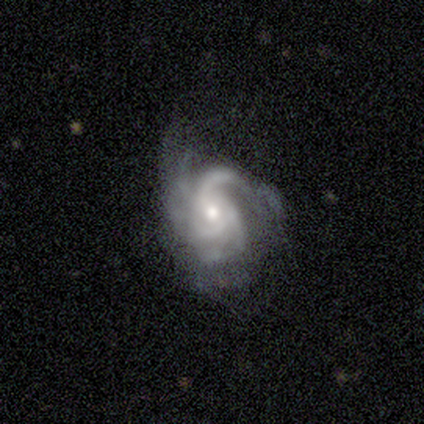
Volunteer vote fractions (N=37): Volunteers were most divided on "spiral winding": medium: 47%, tight: 41%, loose: 12%. Remaining: edge-on disk — no (97%); spiral arms — yes (97%); smooth or featured — featured or disk (92%); bar — no (61%); bulge size — moderate (55%); merging — none (44%); spiral arm count — 3 (38%).